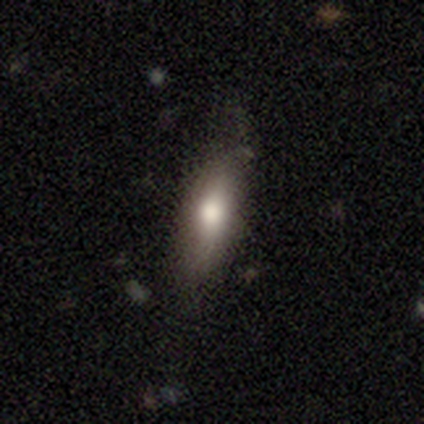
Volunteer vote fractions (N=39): Morphology: type=smooth (74%); roundness=in between (59%); merging=none (79%).